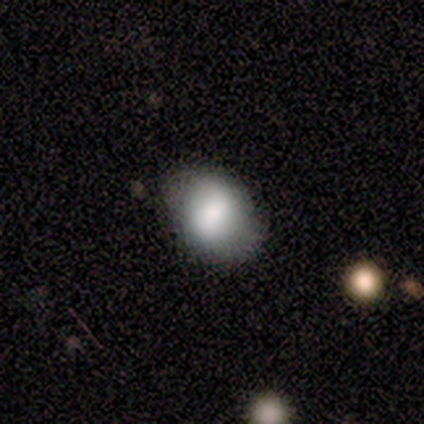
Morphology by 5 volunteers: smooth 80%, star or artifact 20%, featured or disk 0%. Down the decision tree: how rounded — in between (75%); merging — none (75%).